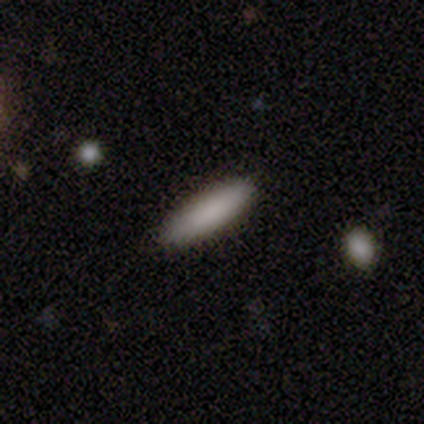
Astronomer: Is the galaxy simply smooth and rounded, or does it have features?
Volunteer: smooth — 100%.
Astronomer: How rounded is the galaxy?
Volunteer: cigar-shaped — 75%.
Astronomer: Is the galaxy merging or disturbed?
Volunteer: none — 100%.